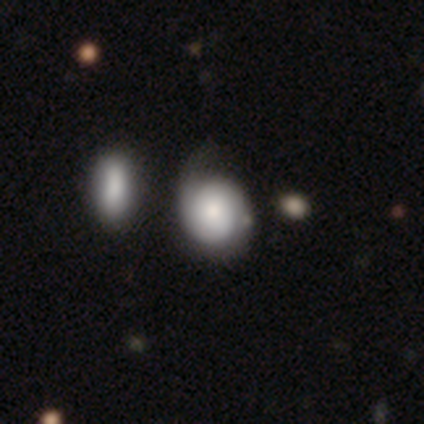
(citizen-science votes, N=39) Morphology: type=smooth (49%); roundness=round (63%); merging=none (35%).